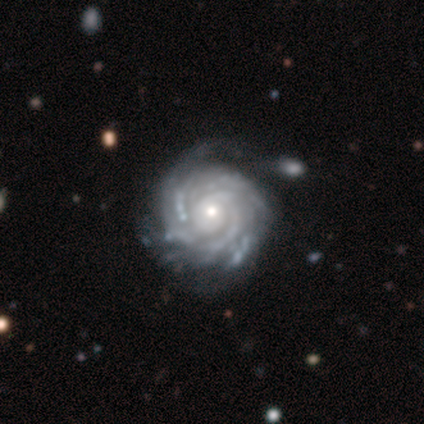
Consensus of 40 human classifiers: smooth-or-featured: featured or disk: 92% | star or artifact: 5% | smooth: 2%
  disk-edge-on: no: 100% | yes: 0%
    bar: no: 92% | weak: 5% | strong: 3%
    has-spiral-arms: yes: 100% | no: 0%
      spiral-winding: tight: 89% | medium: 11% | loose: 0%
      spiral-arm-count: can't tell: 49% | 4: 19% | more than 4: 19% | 2: 5% | 3: 5% | 1: 3%
    bulge-size: small: 51% | moderate: 46% | large: 3% | dominant: 0% | none: 0%
  merging: none: 37% | minor disturbance: 13% | major disturbance: 5% | merger: 5%